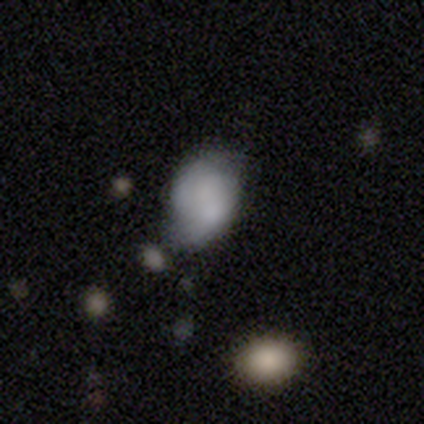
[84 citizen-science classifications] This appears to be a smooth galaxy with no disk features (68%) that is in between round and cigar-shaped (77%). Merging: none (43%, tied with minor disturbance).